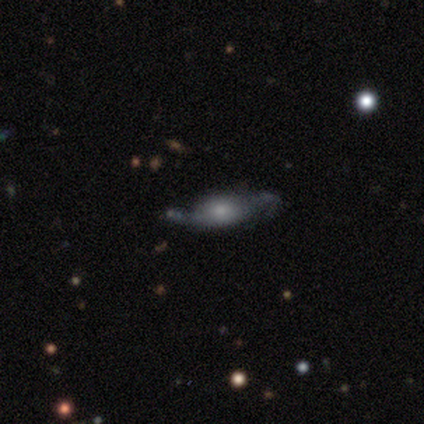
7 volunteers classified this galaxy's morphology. smooth-or-featured: featured or disk: 57% | smooth: 43% | star or artifact: 0%
  disk-edge-on: yes: 50% (tied) | no: 50% (tied)
    edge-on-bulge: boxy: 50% (tied) | rounded: 50% (tied) | none: 0%
  merging: none: 43% | minor disturbance: 29% | major disturbance: 29% | merger: 0%